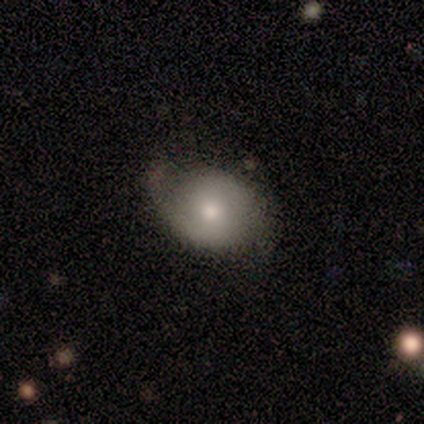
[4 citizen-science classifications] Q: Smooth or featured?
A: smooth (100%)
Q: How rounded?
A: in between (100%)
Q: Merging?
A: none (75%); runner-up: major disturbance (25%)